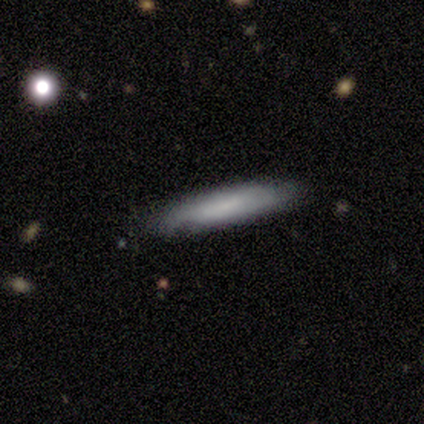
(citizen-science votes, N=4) This is likely a smooth galaxy (75%). How rounded: clearly cigar-shaped (100%). Merging: likely minor disturbance (67%).